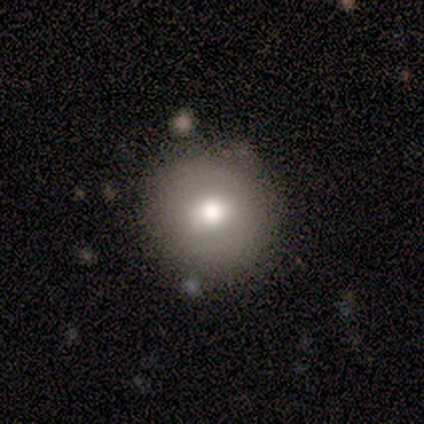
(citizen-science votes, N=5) A smooth galaxy with no disk features (80%) that is round (100%).

Vote fractions:
- Smooth or featured? smooth: 80% / star or artifact: 20% / featured or disk: 0%
- How rounded? round: 100% / in between: 0% / cigar-shaped: 0%
- Merging? none: 100% / minor disturbance: 0% / major disturbance: 0% / merger: 0%